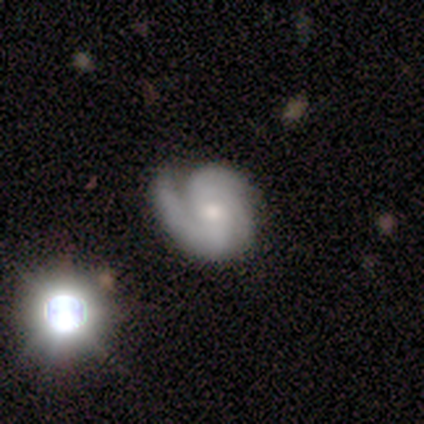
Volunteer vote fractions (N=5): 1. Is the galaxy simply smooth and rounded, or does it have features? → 60% featured or disk, 20% smooth, 20% star or artifact.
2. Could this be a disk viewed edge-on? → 100% no, 0% yes.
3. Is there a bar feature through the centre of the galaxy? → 67% no, 33% weak, 0% strong.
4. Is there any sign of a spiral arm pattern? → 100% yes, 0% no.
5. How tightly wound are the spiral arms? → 67% tight, 33% medium, 0% loose.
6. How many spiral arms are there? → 67% can't tell, 33% 3, 0% 1, 0% 2, 0% 4, 0% more than 4.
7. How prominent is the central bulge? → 67% small, 33% moderate, 0% dominant, 0% large, 0% none.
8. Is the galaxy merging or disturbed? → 100% none, 0% minor disturbance, 0% major disturbance, 0% merger.